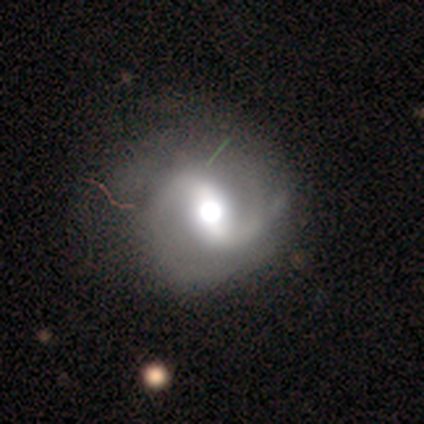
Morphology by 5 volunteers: type=featured or disk (100%); edge-on=no (100%); bar=strong (60%); spiral arms=yes (100%); winding=loose (60%); arm count=2 (100%); bulge=moderate (80%); merging=minor disturbance (60%).